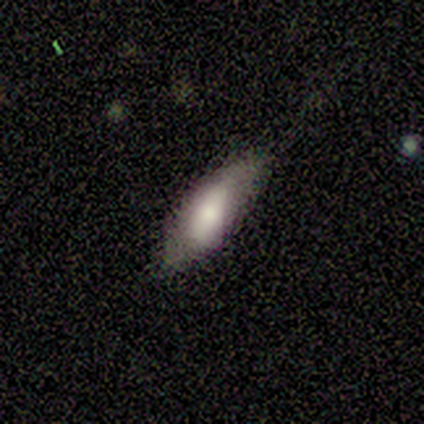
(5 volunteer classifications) smooth 60%, featured or disk 40%, star or artifact 0%. Down the decision tree: how rounded — in between (100%); merging — none (60%).